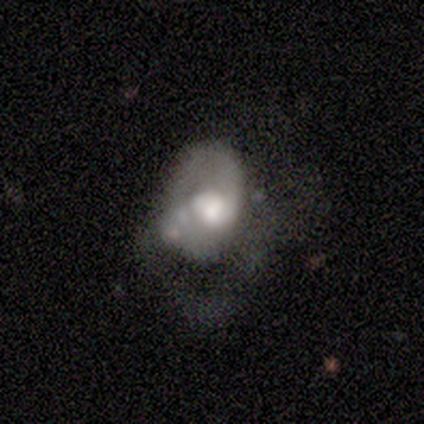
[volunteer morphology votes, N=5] Smooth or featured? 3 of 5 (60%) said featured or disk. Edge-on disk? 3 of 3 (100%) said no. Bar? 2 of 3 (67%) said no. Spiral arms? 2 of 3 (67%) said no. Bulge size? 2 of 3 (67%) said moderate. Merging? 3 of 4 (75%) said major disturbance.